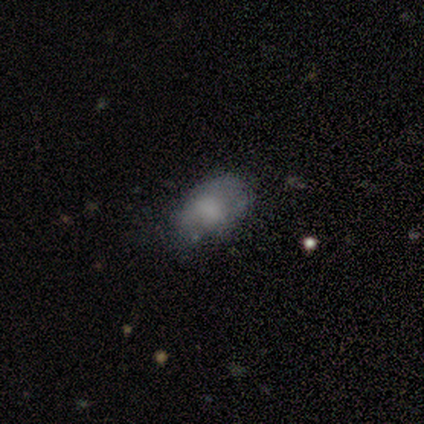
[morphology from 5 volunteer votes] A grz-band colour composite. It shows a smooth galaxy with no disk features (80%) that is in between round and cigar-shaped (100%). Merging: none (100%).